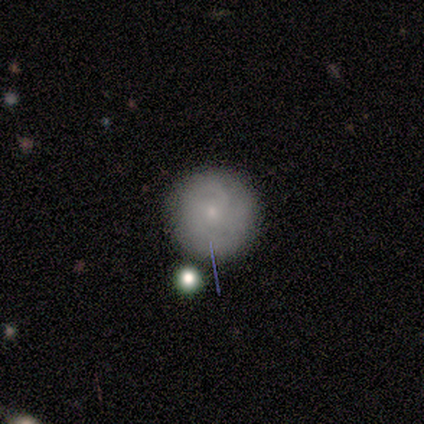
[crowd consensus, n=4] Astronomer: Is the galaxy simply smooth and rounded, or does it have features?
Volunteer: smooth — 50%.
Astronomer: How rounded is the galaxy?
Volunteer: round — 100%.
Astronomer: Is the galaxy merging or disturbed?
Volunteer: minor disturbance — 67%.